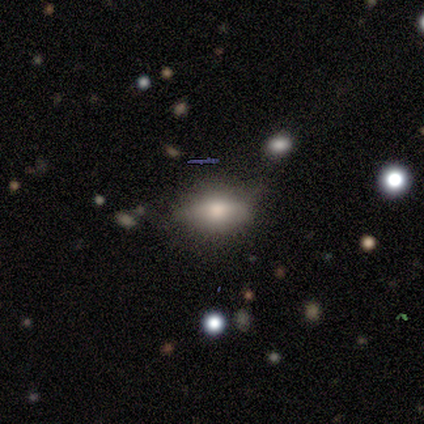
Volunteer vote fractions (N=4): Smooth or featured?
  - featured or disk: 75% *
  - smooth: 25%
  - star or artifact: 0%
Edge-on disk?
  - no: 67% *
  - yes: 33%
Bar?
  - no: 100% *
  - strong: 0%
  - weak: 0%
Spiral arms?
  - no: 100% *
  - yes: 0%
Bulge size?
  - moderate: 50% * (tied)
  - small: 50% * (tied)
  - dominant: 0%
  - large: 0%
  - none: 0%
Merging?
  - none: 50% *
  - minor disturbance: 25%
  - major disturbance: 25%
  - merger: 0%